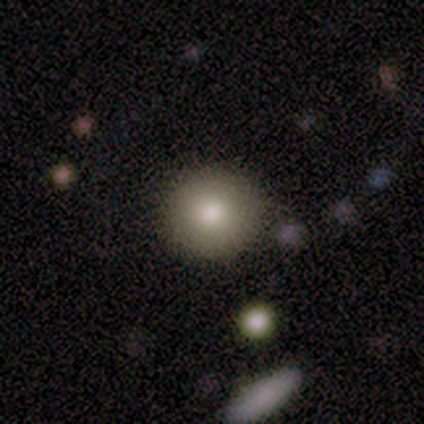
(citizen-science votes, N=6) Smooth or featured? 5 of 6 (83%) said smooth. How rounded? 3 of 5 (60%) said round. Merging? 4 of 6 (67%) said none.